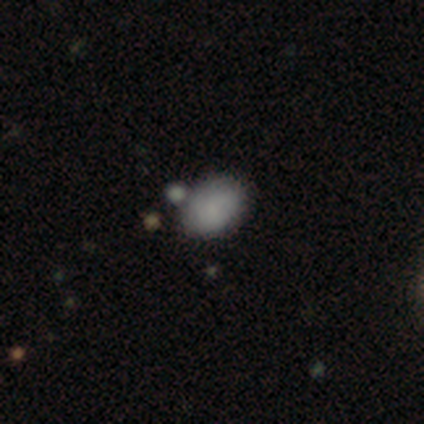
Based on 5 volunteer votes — Q: Smooth or featured?
A: smooth (60%); runner-up: featured or disk (40%)
Q: How rounded?
A: in between (100%)
Q: Merging?
A: none (60%); runner-up: minor disturbance (20%)